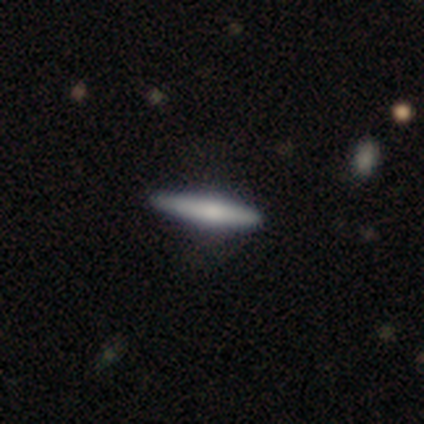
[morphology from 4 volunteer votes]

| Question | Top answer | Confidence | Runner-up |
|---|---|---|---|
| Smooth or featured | smooth | 100% | — |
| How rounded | cigar-shaped | 100% | — |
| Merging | none | 100% | — |